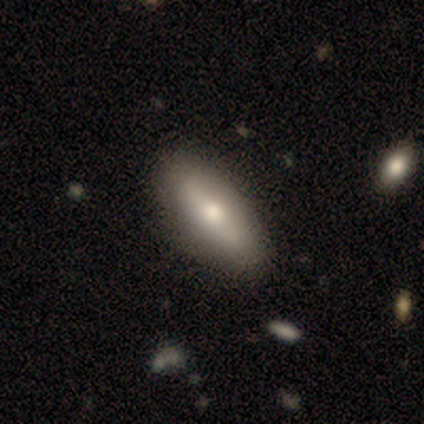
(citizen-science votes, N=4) Smooth or featured: smooth — 50% (tied with featured or disk — 50%)
How rounded: in between — 100%
Merging: none — 100%